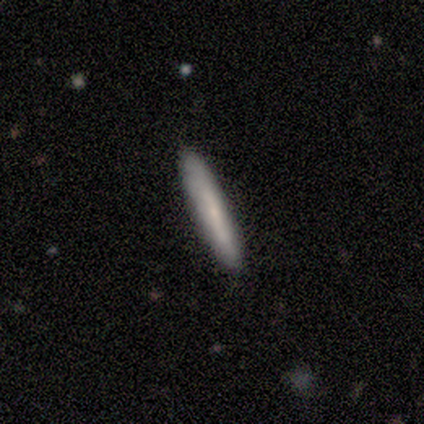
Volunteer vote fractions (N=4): smooth 100%, featured or disk 0%, star or artifact 0%. Down the decision tree: how rounded — cigar-shaped (100%); merging — none (75%).